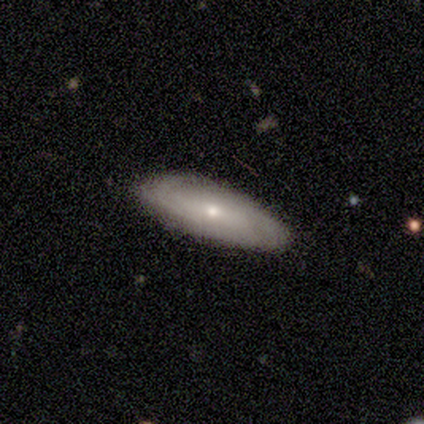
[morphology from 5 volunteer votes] This is clearly a smooth galaxy (80%). How rounded: likely in between (75%). Merging: clearly none (100%).